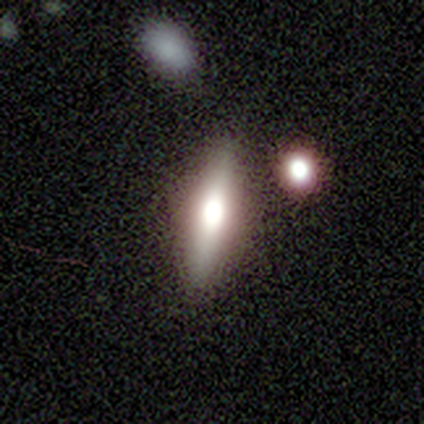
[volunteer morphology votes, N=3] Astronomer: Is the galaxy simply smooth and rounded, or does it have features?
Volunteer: featured or disk — 67%.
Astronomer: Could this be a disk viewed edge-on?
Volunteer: yes — 100%.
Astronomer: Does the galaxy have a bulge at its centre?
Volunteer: rounded — 100%.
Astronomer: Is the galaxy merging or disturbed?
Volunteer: none — 67%.